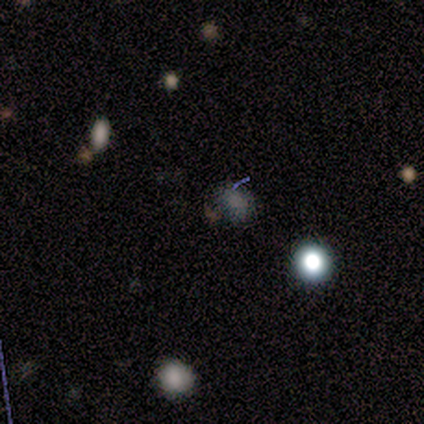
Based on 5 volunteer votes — smooth_or_featured: smooth (p=0.40) [tied with: star or artifact p=0.40]
how_rounded: round (p=1.00)
merging: none (p=1.00)